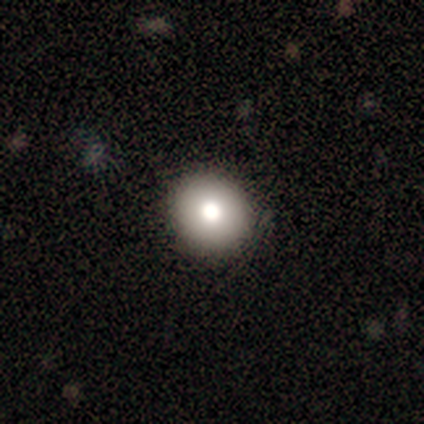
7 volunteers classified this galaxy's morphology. Smooth or featured?
  - smooth: 86% *
  - featured or disk: 14%
  - star or artifact: 0%
How rounded?
  - round: 100% *
  - in between: 0%
  - cigar-shaped: 0%
Merging?
  - none: 100% *
  - minor disturbance: 0%
  - major disturbance: 0%
  - merger: 0%